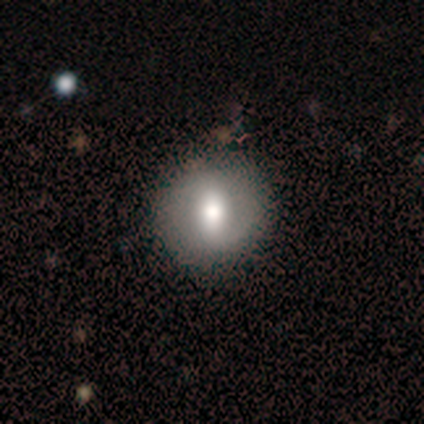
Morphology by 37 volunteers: Smooth or featured? 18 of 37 (49%) said smooth. How rounded? 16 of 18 (89%) said round. Merging? 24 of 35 (69%) said none.